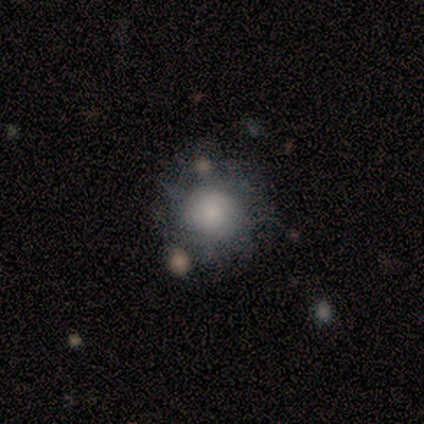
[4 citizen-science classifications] Smooth or featured: smooth — 50% (featured or disk — 25%)
How rounded: round — 100%
Merging: none — 100%